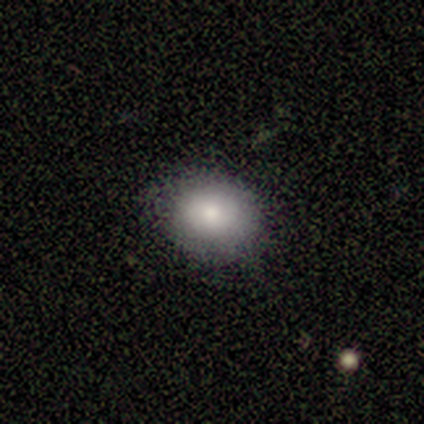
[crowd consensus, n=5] Volunteers were most divided on "merging": none: 80%, minor disturbance: 20%, major disturbance: 0%, merger: 0%. More confident: smooth or featured — smooth (100%); how rounded — in between (100%).